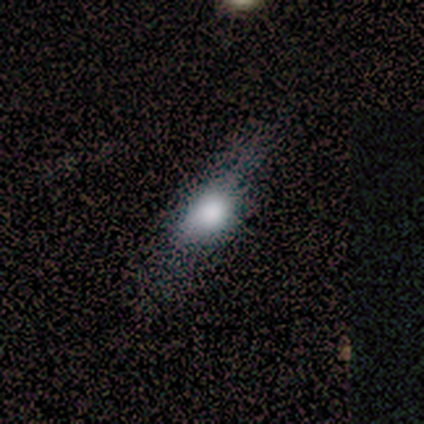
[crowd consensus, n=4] smooth_or_featured: smooth (p=1.00)
how_rounded: in between (p=0.75) [alt: round p=0.25]
merging: none (p=0.50) [alt: minor disturbance p=0.25]